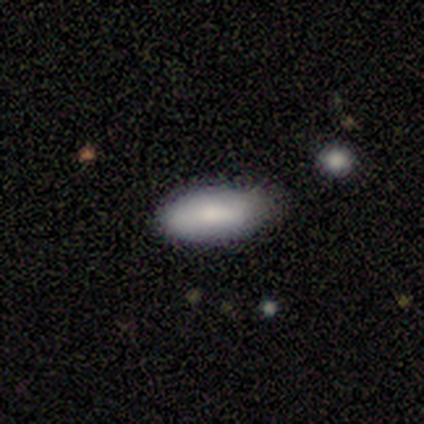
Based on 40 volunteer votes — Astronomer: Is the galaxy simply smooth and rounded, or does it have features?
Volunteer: smooth — 70%.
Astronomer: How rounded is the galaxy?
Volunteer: in between — 93%.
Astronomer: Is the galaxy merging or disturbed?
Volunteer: none — 64%.